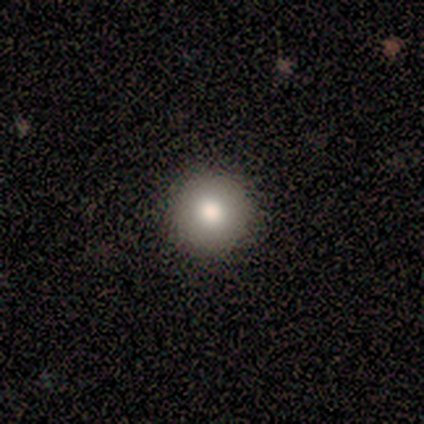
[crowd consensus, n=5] smooth_or_featured: smooth (p=0.80) [alt: star or artifact p=0.20]
how_rounded: round (p=1.00)
merging: none (p=1.00)